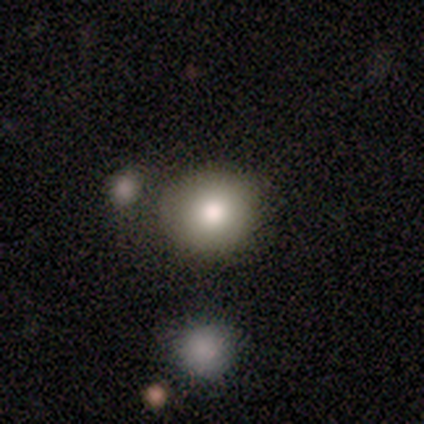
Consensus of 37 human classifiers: smooth_or_featured: smooth (p=0.73) [alt: featured or disk p=0.16]
how_rounded: round (p=0.89) [alt: in between p=0.11]
merging: none (p=0.85) [alt: minor disturbance p=0.09]